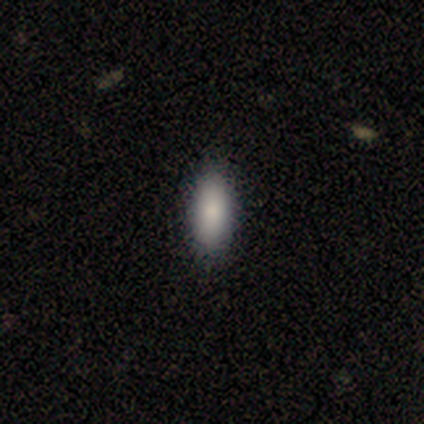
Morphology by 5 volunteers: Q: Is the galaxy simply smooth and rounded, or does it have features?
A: smooth — 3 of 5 (60%).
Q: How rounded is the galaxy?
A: in between — 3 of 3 (100%).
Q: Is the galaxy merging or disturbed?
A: none — 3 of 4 (75%).